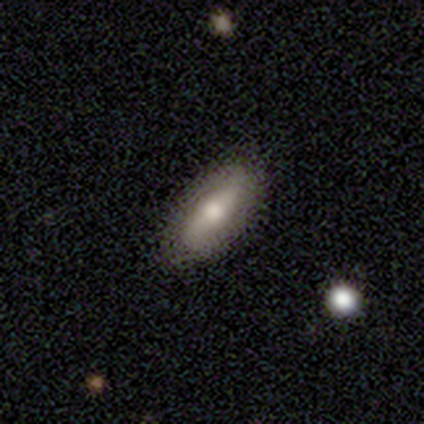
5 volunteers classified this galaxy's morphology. Smooth or featured? 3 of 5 (60%) said smooth. How rounded? 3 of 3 (100%) said in between. Merging? 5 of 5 (100%) said none.